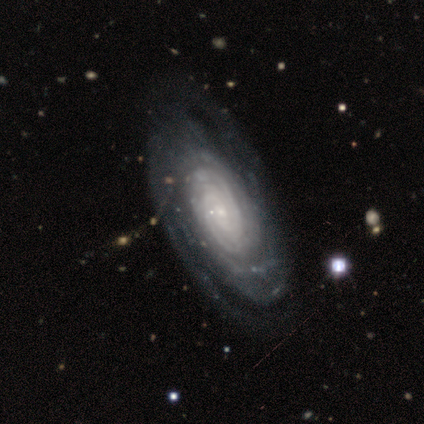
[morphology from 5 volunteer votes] Smooth or featured? 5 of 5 (100%) said featured or disk. Edge-on disk? 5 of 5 (100%) said no. Bar? 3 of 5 (60%) said weak. Spiral arms? 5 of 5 (100%) said yes. Spiral winding? 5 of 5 (100%) said tight. Spiral arm count? 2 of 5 (40%, tied with can't tell) said 2. Bulge size? 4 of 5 (80%) said small. Merging? 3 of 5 (60%) said none.